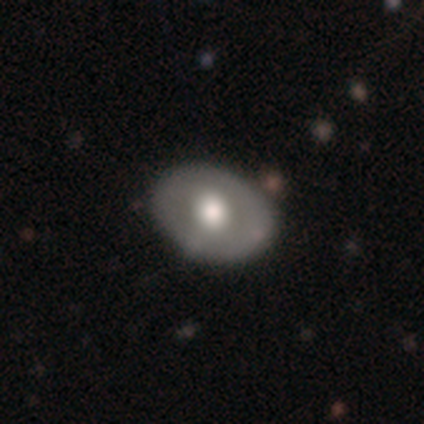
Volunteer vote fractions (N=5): Overall: smooth (60%; featured or disk 20%). How rounded: in between (100%). Merging: none (75%).